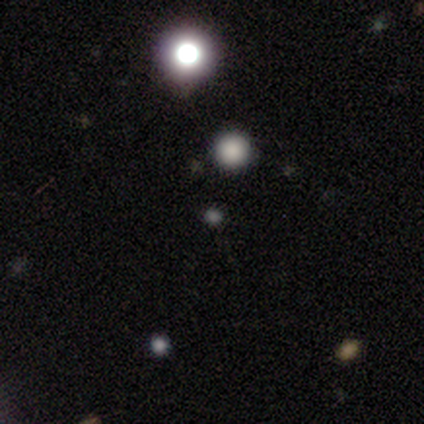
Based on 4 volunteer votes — Smooth or featured? 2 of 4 (50%, tied with star or artifact) said smooth. How rounded? 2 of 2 (100%) said round. Merging? 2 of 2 (100%) said none.